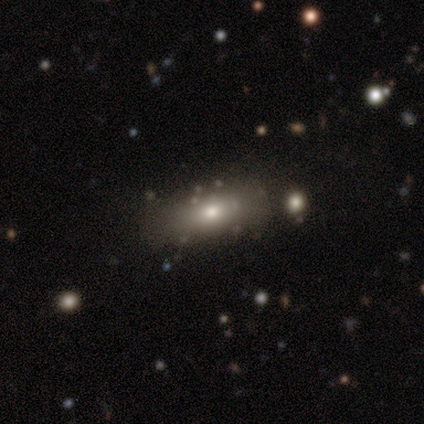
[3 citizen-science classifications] This appears to be a smooth galaxy with no disk features (100%) that is in between round and cigar-shaped (67%). Merging: none (67%).